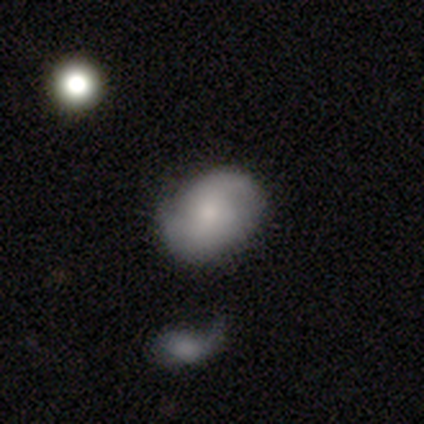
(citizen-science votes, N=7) featured or disk 57%, smooth 29%, star or artifact 14%. Down the decision tree: edge-on disk — no (100%); bar — no (75%); spiral arms — yes (75%); spiral arm count — 2 (100%); spiral winding — tight (67%); bulge size — small (75%); merging — none (83%).